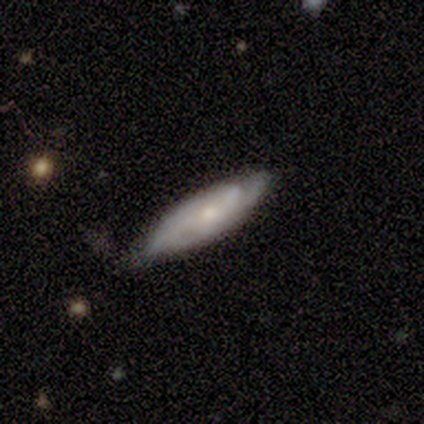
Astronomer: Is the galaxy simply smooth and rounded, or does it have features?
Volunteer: featured or disk — 100%.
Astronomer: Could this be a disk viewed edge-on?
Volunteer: no — 75%.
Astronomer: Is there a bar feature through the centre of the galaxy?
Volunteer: no — 100%.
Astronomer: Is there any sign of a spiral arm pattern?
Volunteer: yes — 67%.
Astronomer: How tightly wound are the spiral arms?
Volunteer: tight — 50%, tied with loose at 50%.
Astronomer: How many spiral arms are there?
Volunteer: can't tell — 100%.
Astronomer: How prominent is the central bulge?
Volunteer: small — 67%.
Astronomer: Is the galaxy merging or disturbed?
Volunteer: none — 75%.